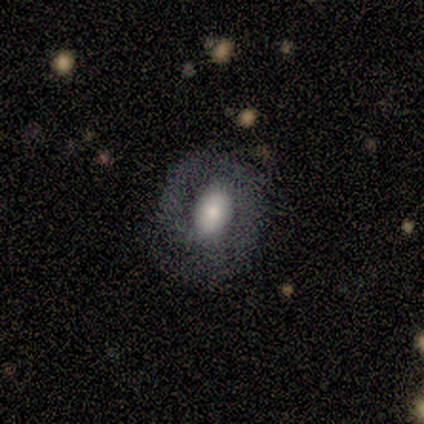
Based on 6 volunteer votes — Volunteers were most divided on "bulge size" (2-way tie): large: 50%, moderate: 50%, dominant: 0%, small: 0%, none: 0%. More confident: edge-on disk — no (100%); spiral arm count — 2 (100%); merging — none (100%); spiral arms — yes (75%); spiral winding — medium (67%); smooth or featured — featured or disk (67%); bar — strong (50%).